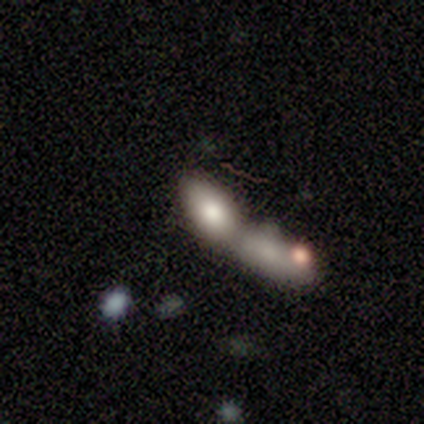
Smooth or featured? smooth (50%)
How rounded? in between (50%, tied with cigar-shaped)
Merging? merger (67%)